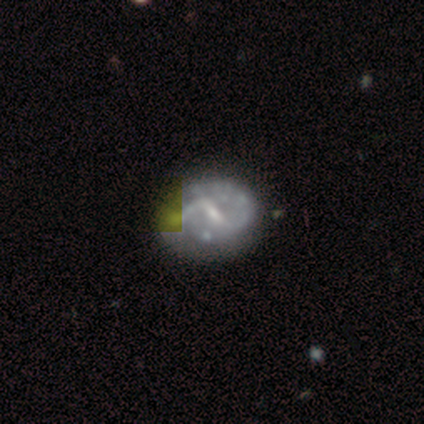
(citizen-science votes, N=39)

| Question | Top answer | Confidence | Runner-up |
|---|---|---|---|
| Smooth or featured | featured or disk | 90% | smooth (5%) |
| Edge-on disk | no | 100% | — |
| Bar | weak | 69% | strong (26%) |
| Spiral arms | yes | 77% | no (23%) |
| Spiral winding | loose | 48% | medium (41%) |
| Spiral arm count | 2 | 81% | can't tell (11%) |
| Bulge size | small | 77% | moderate (14%) |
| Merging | none | 43% | minor disturbance (16%) |